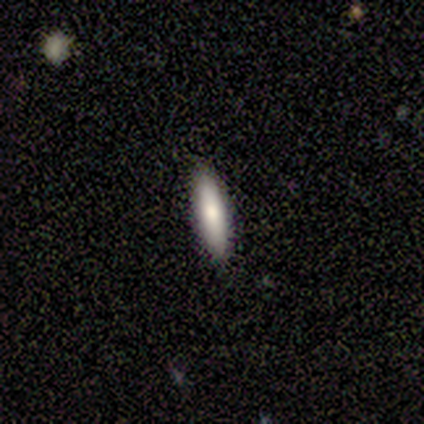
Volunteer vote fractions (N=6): Smooth or featured? 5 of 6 (83%) said smooth. How rounded? 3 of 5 (60%) said cigar-shaped. Merging? 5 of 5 (100%) said none.